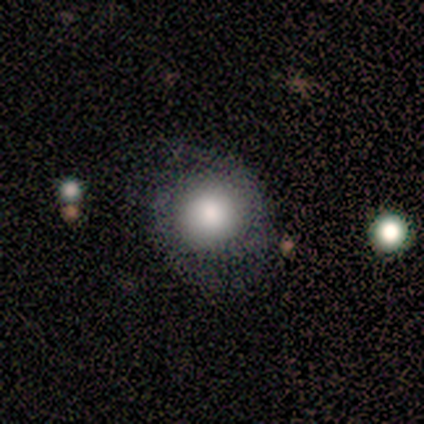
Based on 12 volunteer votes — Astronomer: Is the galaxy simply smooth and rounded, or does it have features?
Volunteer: smooth — 67%.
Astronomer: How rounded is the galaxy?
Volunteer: round — 88%.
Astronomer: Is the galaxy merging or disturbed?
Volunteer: none — 45%, tied with minor disturbance at 45%.